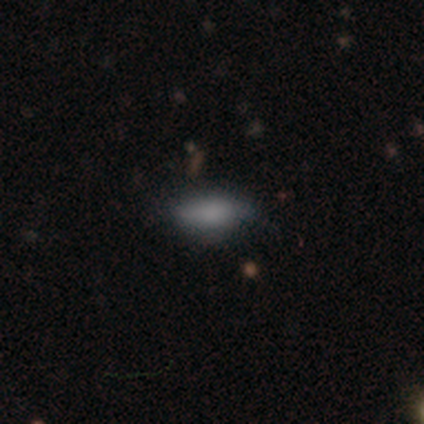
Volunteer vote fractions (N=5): smooth 60%, star or artifact 40%, featured or disk 0%. Down the decision tree: how rounded — in between (67%); merging — none (67%).